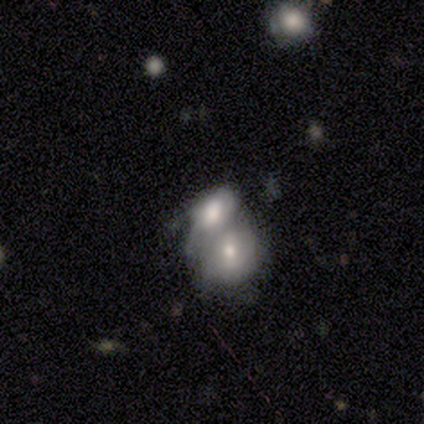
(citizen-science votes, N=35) Smooth or featured: smooth — 63% (featured or disk — 34%)
How rounded: in between — 68% (round — 27%)
Merging: merger — 79%